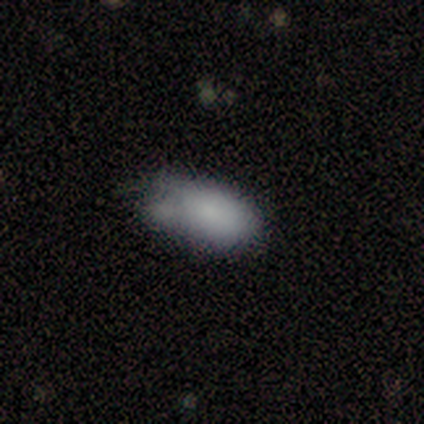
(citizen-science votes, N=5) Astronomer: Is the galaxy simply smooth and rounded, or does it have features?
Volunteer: smooth — 100%.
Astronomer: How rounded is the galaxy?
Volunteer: in between — 100%.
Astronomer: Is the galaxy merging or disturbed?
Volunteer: major disturbance — 40% (runner-up: none, 20%).